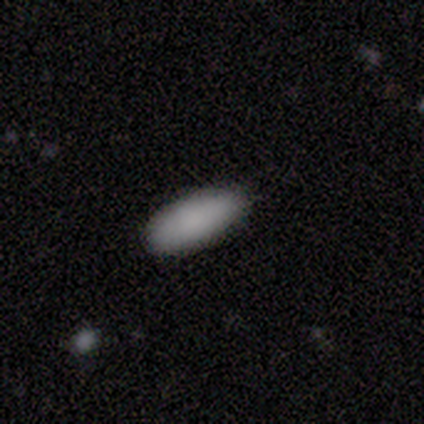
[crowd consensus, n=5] Smooth or featured: smooth — 80% (star or artifact — 20%)
How rounded: in between — 100%
Merging: none — 50% (tied with minor disturbance — 50%)